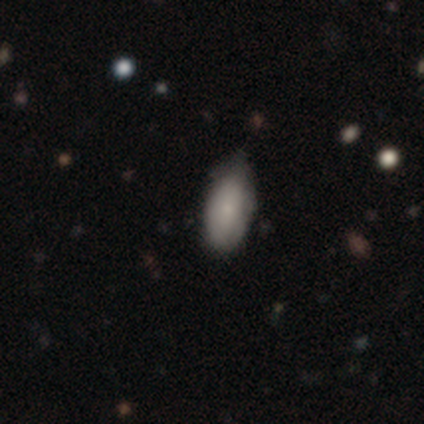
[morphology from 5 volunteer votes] smooth-or-featured: smooth: 80% | star or artifact: 20% | featured or disk: 0%
  how-rounded: in between: 100% | round: 0% | cigar-shaped: 0%
  merging: none: 50% (tied) | minor disturbance: 50% (tied) | major disturbance: 0% | merger: 0%